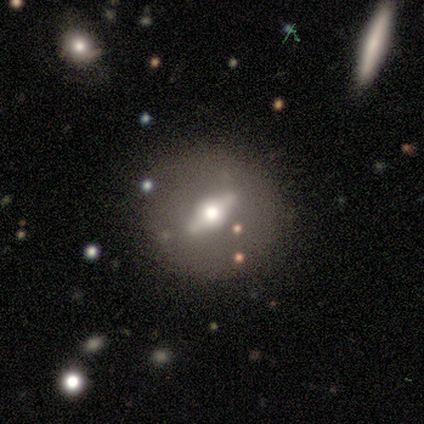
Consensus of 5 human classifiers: Overall: featured or disk (60%; smooth 40%). Edge-on disk: no (67%; yes 33%). Bar: strong (100%). Spiral arms: no (100%). Bulge size: moderate (100%). Merging: none (40%, tied with merger).